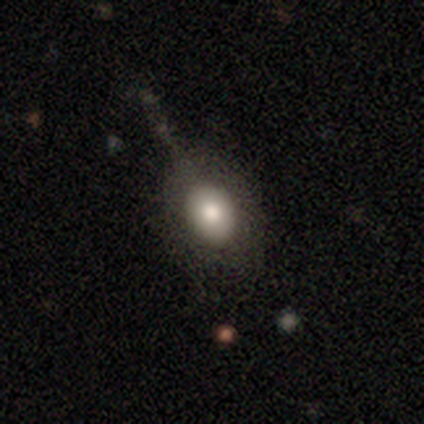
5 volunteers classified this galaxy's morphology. Smooth or featured?
  - smooth: 80% *
  - featured or disk: 20%
  - star or artifact: 0%
How rounded?
  - round: 50% * (tied)
  - in between: 50% * (tied)
  - cigar-shaped: 0%
Merging?
  - none: 40% * (tied)
  - minor disturbance: 40% * (tied)
  - major disturbance: 20%
  - merger: 0%